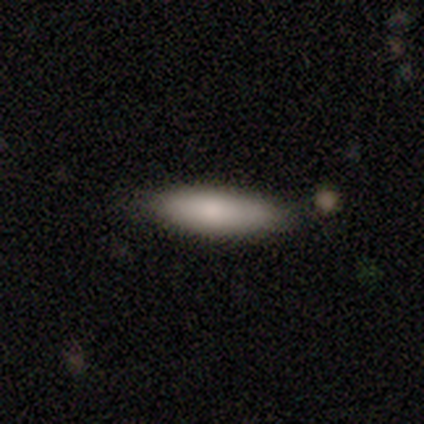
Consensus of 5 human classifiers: Smooth or featured? smooth (80%)
How rounded? in between (75%)
Merging? none (60%)